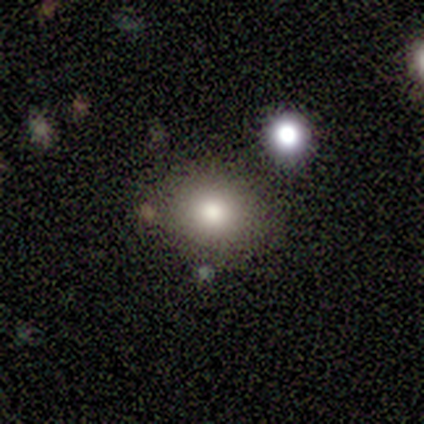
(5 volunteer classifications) Smooth or featured? 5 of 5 (100%) said smooth. How rounded? 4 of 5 (80%) said round. Merging? 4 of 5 (80%) said none.